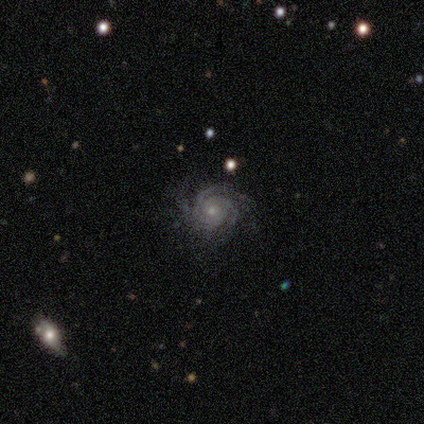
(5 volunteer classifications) smooth_or_featured: featured or disk (p=1.00)
disk_edge_on: no (p=1.00)
bar: no (p=1.00)
has_spiral_arms: yes (p=1.00)
spiral_winding: tight (p=0.80) [alt: medium p=0.20]
spiral_arm_count: can't tell (p=0.60) [alt: 2 p=0.20]
bulge_size: moderate (p=0.40) [tied with: small p=0.40]
merging: none (p=0.60) [alt: minor disturbance p=0.40]